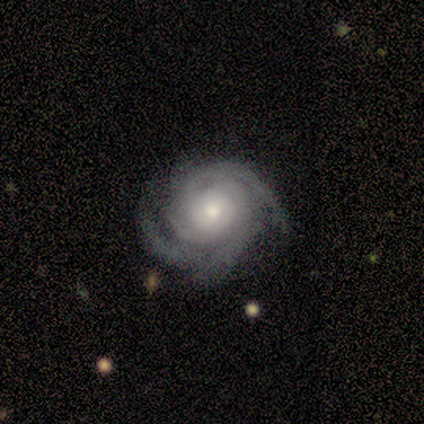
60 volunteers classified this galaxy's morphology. Smooth or featured? featured or disk (90%)
Edge-on disk? no (98%)
Bar? no (91%)
Spiral arms? yes (96%)
Spiral winding? tight (71%)
Spiral arm count? 2 (37%, tied with 3)
Bulge size? moderate (49%)
Merging? none (72%)